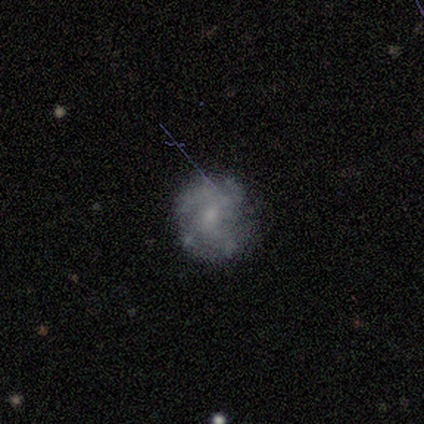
A featured or disk galaxy (73%) with no bar (75%), 1 (25%, tied with 2, 3 and can't tell) medium (75%) spiral arms (50%, tied with no) and a small central bulge (75%). Merging: none (82%).